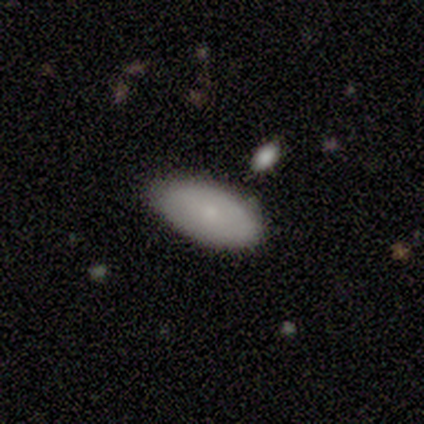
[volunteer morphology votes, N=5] Overall: smooth (80%). How rounded: in between (100%). Merging: none (75%).